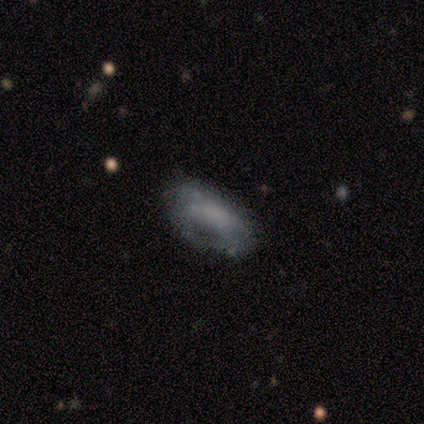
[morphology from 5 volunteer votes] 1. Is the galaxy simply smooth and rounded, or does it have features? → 60% smooth, 40% star or artifact, 0% featured or disk.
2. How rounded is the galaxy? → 100% in between, 0% round, 0% cigar-shaped.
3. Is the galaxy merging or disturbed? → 33% none (tied), 33% minor disturbance (tied), 33% major disturbance (tied), 0% merger.